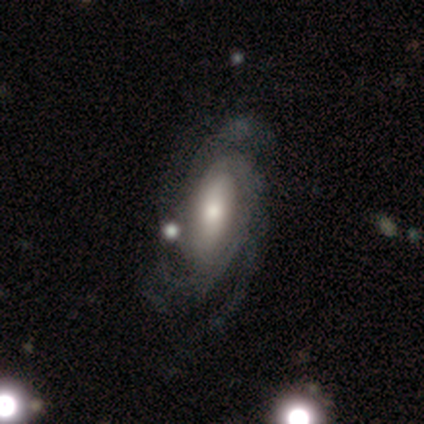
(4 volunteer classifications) Overall: featured or disk (100%). Edge-on disk: no (75%). Bar: no (67%; weak 33%). Spiral arms: yes (100%). Spiral arm count: can't tell (67%; 4 33%). Spiral winding: medium (67%; tight 33%). Bulge size: large (67%; moderate 33%). Merging: none (100%).